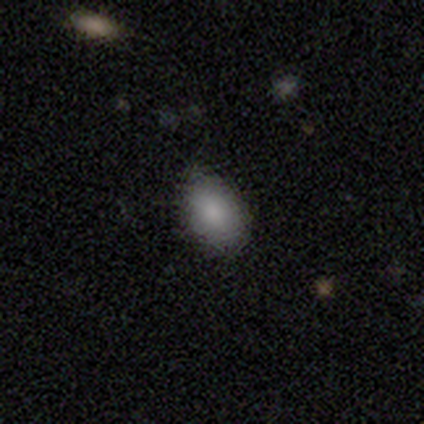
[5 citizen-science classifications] Consensus on every question: smooth or featured — smooth (100%); how rounded — in between (100%); merging — none (100%).